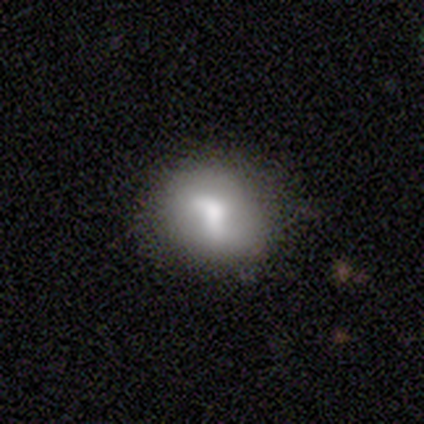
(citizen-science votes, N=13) This appears to be a smooth galaxy with no disk features (46%, tied with featured or disk) that is round (50%, tied with in between). Merging: none (67%).